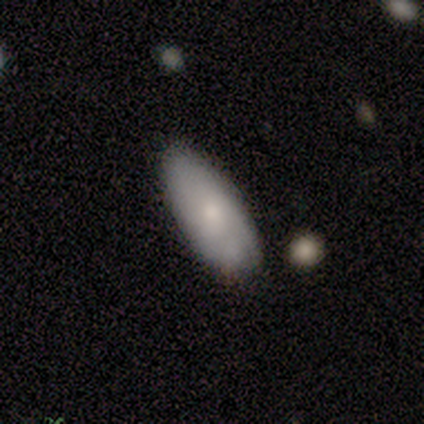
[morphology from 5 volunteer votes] This appears to be a smooth galaxy with no disk features (80%) that is in between round and cigar-shaped (100%). Merging: none (100%).